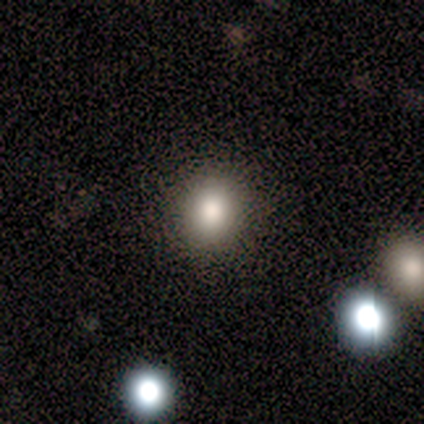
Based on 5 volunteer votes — smooth-or-featured: smooth: 60% | star or artifact: 40% | featured or disk: 0%
  how-rounded: round: 100% | in between: 0% | cigar-shaped: 0%
  merging: none: 67% | minor disturbance: 33% | major disturbance: 0% | merger: 0%